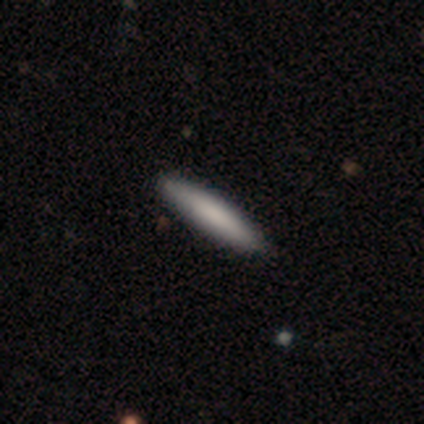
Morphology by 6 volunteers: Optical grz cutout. It shows a smooth galaxy with no disk features (67%) that is cigar-shaped (100%). Merging: none (75%).